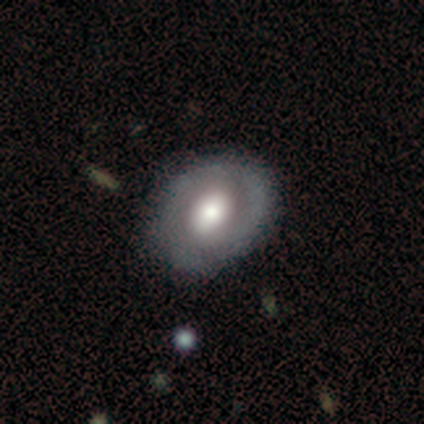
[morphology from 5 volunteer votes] Smooth or featured? 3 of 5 (60%) said featured or disk. Edge-on disk? 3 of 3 (100%) said no. Bar? 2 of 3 (67%) said no. Spiral arms? 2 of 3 (67%) said yes. Spiral winding? 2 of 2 (100%) said tight. Spiral arm count? 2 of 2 (100%) said 2. Bulge size? 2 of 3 (67%) said moderate. Merging? 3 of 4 (75%) said none.